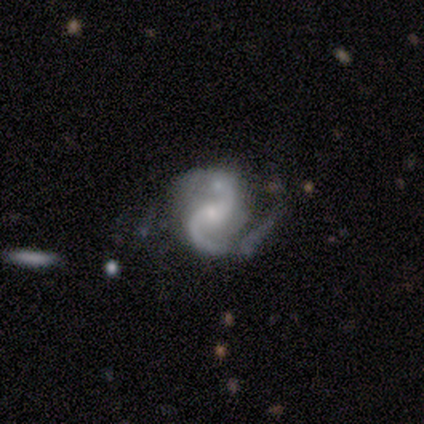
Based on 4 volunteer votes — Smooth or featured?
  - featured or disk: 75% *
  - star or artifact: 25%
  - smooth: 0%
Edge-on disk?
  - no: 100% *
  - yes: 0%
Bar?
  - weak: 67% *
  - no: 33%
  - strong: 0%
Spiral arms?
  - yes: 100% *
  - no: 0%
Spiral winding?
  - loose: 67% *
  - medium: 33%
  - tight: 0%
Spiral arm count?
  - 2: 100% *
  - 1: 0%
  - 3: 0%
  - 4: 0%
  - more than 4: 0%
  - can't tell: 0%
Bulge size?
  - small: 67% *
  - moderate: 33%
  - dominant: 0%
  - large: 0%
  - none: 0%
Merging?
  - none: 33% * (tied)
  - minor disturbance: 33% * (tied)
  - merger: 33% * (tied)
  - major disturbance: 0%